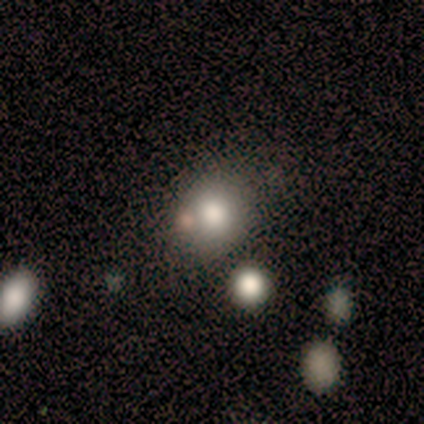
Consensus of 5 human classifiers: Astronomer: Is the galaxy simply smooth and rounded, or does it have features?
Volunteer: smooth — 60% (runner-up: star or artifact, 40%).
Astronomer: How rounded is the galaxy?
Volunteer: round — 67%.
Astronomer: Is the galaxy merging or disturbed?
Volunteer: none — 100%.